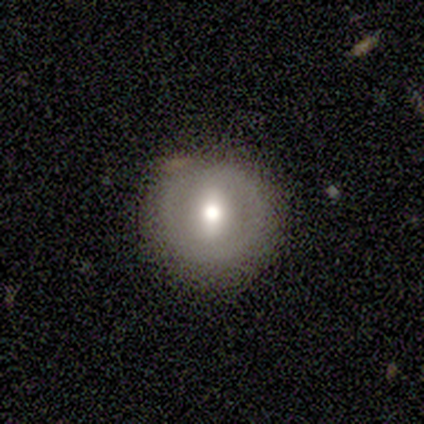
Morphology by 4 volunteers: Smooth or featured? 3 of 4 (75%) said smooth. How rounded? 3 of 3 (100%) said round. Merging? 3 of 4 (75%) said none.